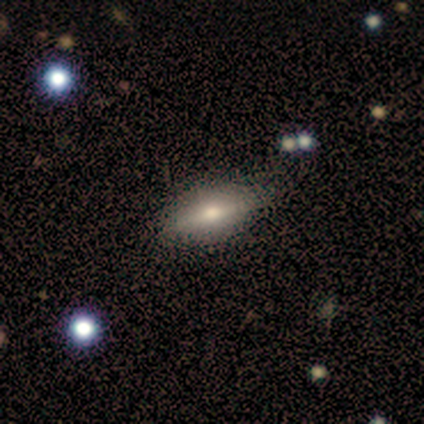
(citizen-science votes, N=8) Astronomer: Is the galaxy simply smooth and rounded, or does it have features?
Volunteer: featured or disk — 62%.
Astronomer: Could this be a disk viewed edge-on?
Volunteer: yes — 60% (runner-up: no, 40%).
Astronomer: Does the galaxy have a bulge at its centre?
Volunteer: rounded — 100%.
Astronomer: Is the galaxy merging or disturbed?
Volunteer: none — 75%.